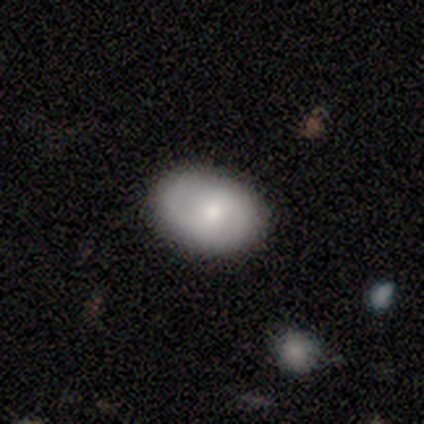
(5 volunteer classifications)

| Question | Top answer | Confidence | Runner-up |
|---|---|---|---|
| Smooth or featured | smooth | 80% | featured or disk (20%) |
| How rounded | in between | 100% | — |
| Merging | none | 60% | minor disturbance (40%) |